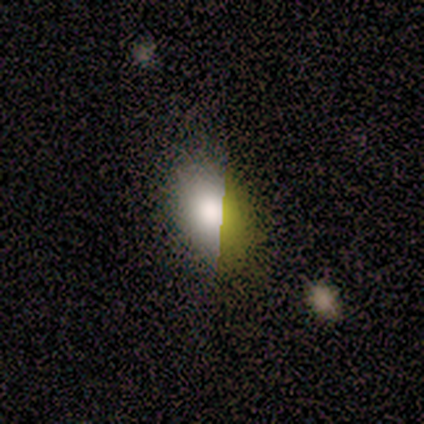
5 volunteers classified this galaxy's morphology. Smooth or featured? smooth (40%, tied with featured or disk)
How rounded? in between (100%)
Merging? none (50%)